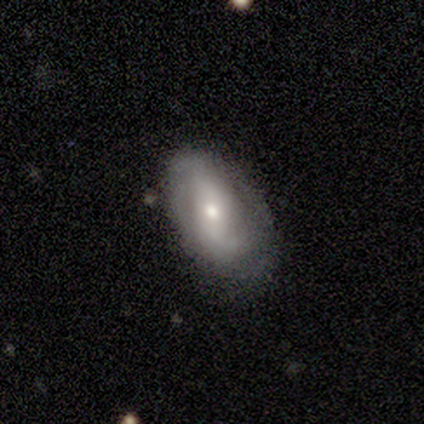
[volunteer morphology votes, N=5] type=featured or disk (60%); edge-on=no (100%); bar=no (67%); spiral arms=yes (100%); winding=medium (67%); arm count=can't tell (67%); bulge=small (67%); merging=none (60%).